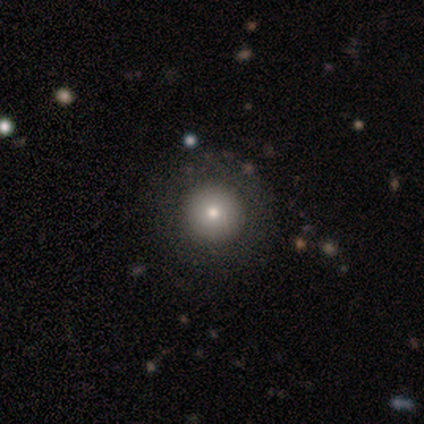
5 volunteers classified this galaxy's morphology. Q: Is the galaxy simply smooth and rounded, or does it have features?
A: smooth — 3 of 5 (60%).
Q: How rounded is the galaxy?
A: round — 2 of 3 (67%).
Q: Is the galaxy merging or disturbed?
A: none — 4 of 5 (80%).